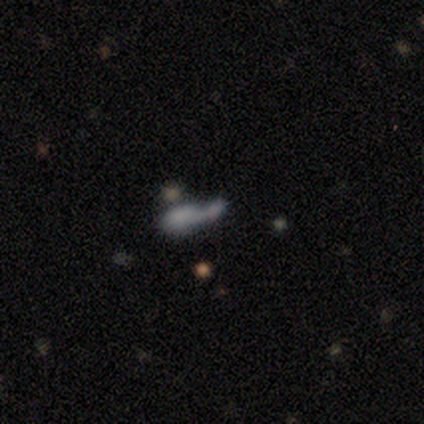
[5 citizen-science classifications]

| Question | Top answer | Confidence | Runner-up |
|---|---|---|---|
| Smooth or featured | smooth | 100% | — |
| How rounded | in between | 60% | cigar-shaped (40%) |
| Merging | merger | 100% | — |